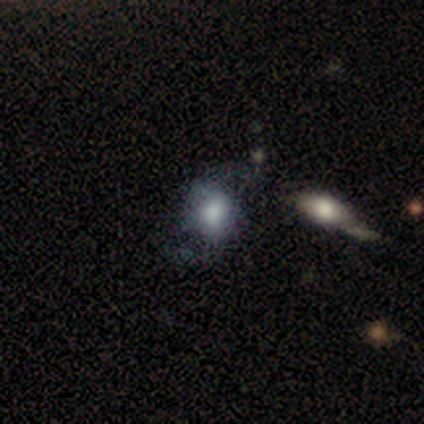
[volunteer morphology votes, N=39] type=smooth (51%); roundness=in between (55%); merging=none (51%).